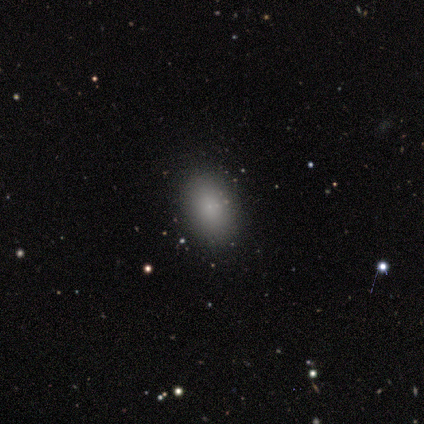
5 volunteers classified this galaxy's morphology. A smooth galaxy with no disk features (80%) that is in between round and cigar-shaped (75%). Merging: none (100%).